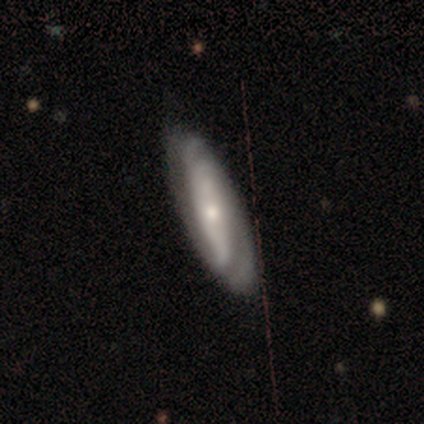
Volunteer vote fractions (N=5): Q: Smooth or featured?
A: featured or disk (80%); runner-up: smooth (20%)
Q: Edge-on disk?
A: no (75%); runner-up: yes (25%)
Q: Bar?
A: strong (67%); runner-up: weak (33%)
Q: Spiral arms?
A: yes (100%)
Q: Spiral winding?
A: tight (67%); runner-up: loose (33%)
Q: Spiral arm count?
A: 2 (67%); runner-up: can't tell (33%)
Q: Bulge size?
A: moderate (67%); runner-up: small (33%)
Q: Merging?
A: none (100%)